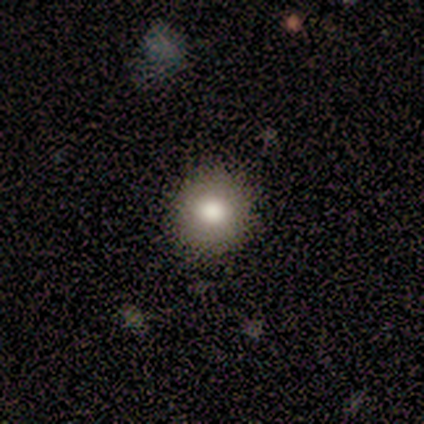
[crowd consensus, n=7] Morphology: type=smooth (71%); roundness=round (100%); merging=none (71%).